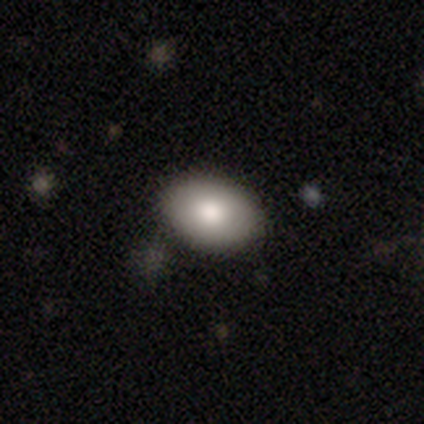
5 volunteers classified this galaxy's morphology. smooth-or-featured: smooth: 80% | star or artifact: 20% | featured or disk: 0%
  how-rounded: in between: 75% | round: 25% | cigar-shaped: 0%
  merging: none: 100% | minor disturbance: 0% | major disturbance: 0% | merger: 0%